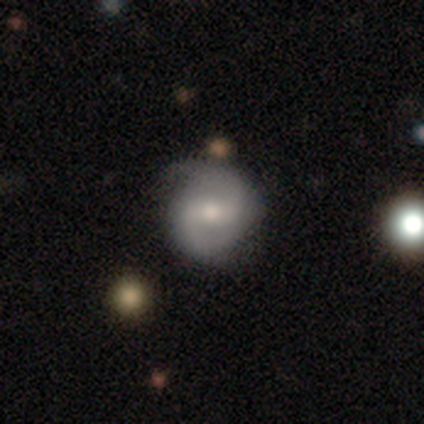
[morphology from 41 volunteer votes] Smooth or featured?
  - featured or disk: 68% *
  - smooth: 24%
  - star or artifact: 7%
Edge-on disk?
  - no: 96% *
  - yes: 4%
Bar?
  - weak: 44% *
  - strong: 30%
  - no: 26%
Spiral arms?
  - yes: 85% *
  - no: 15%
Spiral winding?
  - medium: 61% *
  - tight: 22%
  - loose: 17%
Spiral arm count?
  - 2: 96% *
  - 1: 4%
  - 3: 0%
  - 4: 0%
  - more than 4: 0%
  - can't tell: 0%
Bulge size?
  - moderate: 41% *
  - small: 33%
  - large: 11%
  - none: 11%
  - dominant: 4%
Merging?
  - none: 76% *
  - minor disturbance: 11%
  - major disturbance: 8%
  - merger: 5%